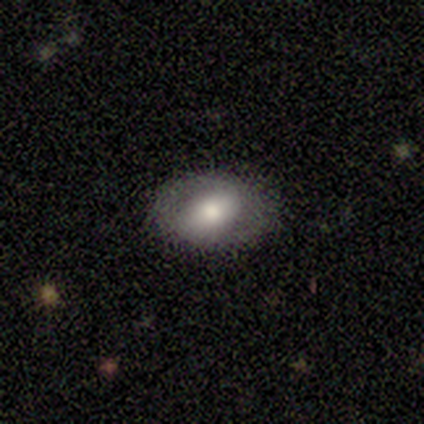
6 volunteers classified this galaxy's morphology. This appears to be a smooth galaxy with no disk features (67%) that is in between round and cigar-shaped (75%). Merging: none (50%, tied with minor disturbance).